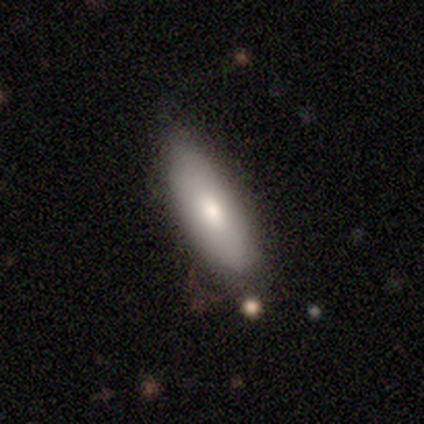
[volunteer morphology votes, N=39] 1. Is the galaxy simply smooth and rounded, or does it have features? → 82% smooth, 15% featured or disk, 3% star or artifact.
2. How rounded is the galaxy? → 75% in between, 22% cigar-shaped, 3% round.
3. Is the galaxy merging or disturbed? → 55% none, 18% minor disturbance, 8% merger, 3% major disturbance.